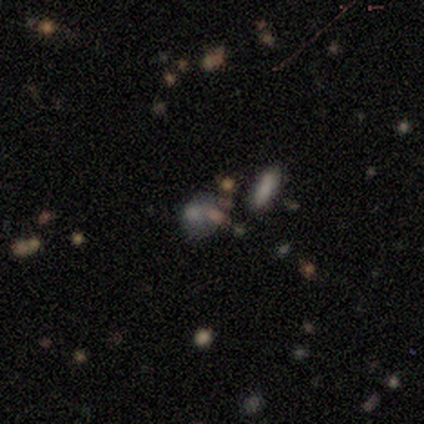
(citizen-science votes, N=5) Morphology: type=smooth (60%); roundness=in between (67%); merging=none (67%).